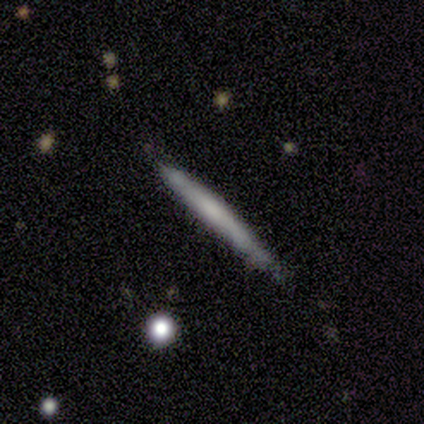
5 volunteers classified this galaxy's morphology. smooth_or_featured: smooth (p=0.80) [alt: featured or disk p=0.20]
how_rounded: cigar-shaped (p=1.00)
merging: none (p=1.00)